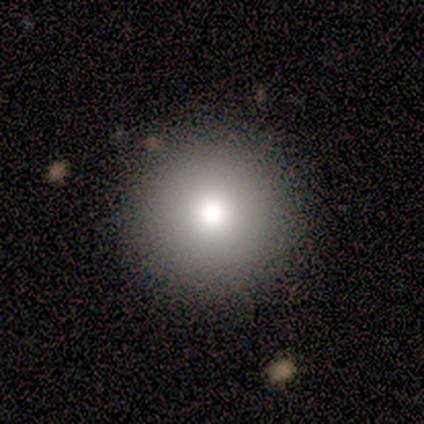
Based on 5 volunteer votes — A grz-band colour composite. It shows a smooth galaxy with no disk features (80%) that is round (100%). Merging: none (100%).